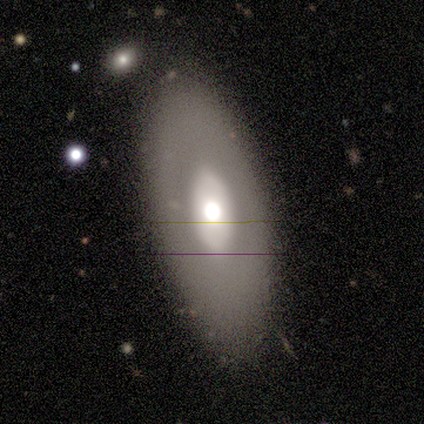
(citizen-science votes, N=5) A smooth galaxy with no disk features (80%) that is in between round and cigar-shaped (50%, tied with cigar-shaped).

Vote fractions:
- Smooth or featured? smooth: 80% / featured or disk: 20% / star or artifact: 0%
- How rounded? in between: 50% (tied) / cigar-shaped: 50% (tied) / round: 0%
- Merging? none: 100% / minor disturbance: 0% / major disturbance: 0% / merger: 0%